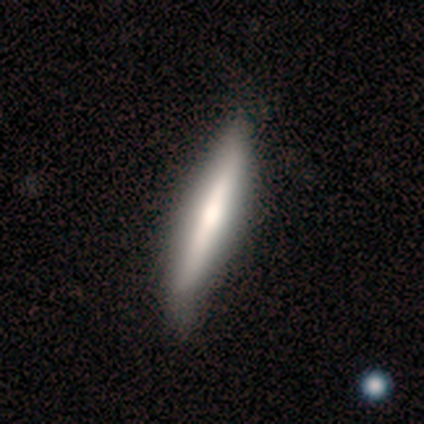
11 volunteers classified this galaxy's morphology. smooth-or-featured: featured or disk: 55% | smooth: 45% | star or artifact: 0%
  disk-edge-on: yes: 100% | no: 0%
    edge-on-bulge: none: 50% (tied) | rounded: 50% (tied) | boxy: 0%
  merging: none: 55% | minor disturbance: 45% | major disturbance: 0% | merger: 0%